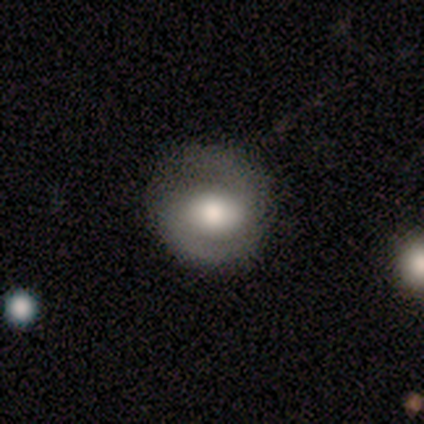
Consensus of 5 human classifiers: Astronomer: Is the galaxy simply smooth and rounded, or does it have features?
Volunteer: featured or disk — 60% (runner-up: smooth, 40%).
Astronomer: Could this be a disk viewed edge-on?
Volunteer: no — 100%.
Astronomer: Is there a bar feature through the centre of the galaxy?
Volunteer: strong — 33%, tied with weak and no at 33%.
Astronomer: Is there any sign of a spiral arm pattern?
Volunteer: yes — 100%.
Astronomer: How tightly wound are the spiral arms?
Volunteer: tight — 100%.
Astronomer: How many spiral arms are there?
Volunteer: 2 — 100%.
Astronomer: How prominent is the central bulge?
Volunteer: moderate — 67%.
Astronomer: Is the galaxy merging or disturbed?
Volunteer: none — 100%.